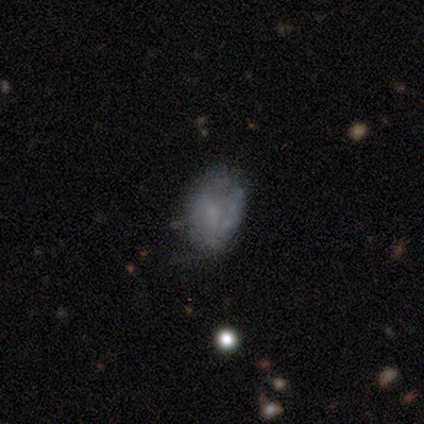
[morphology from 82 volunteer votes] Q: Smooth or featured?
A: smooth (50%); runner-up: featured or disk (45%)
Q: How rounded?
A: in between (90%); runner-up: round (10%)
Q: Merging?
A: none (24%); runner-up: minor disturbance (23%)